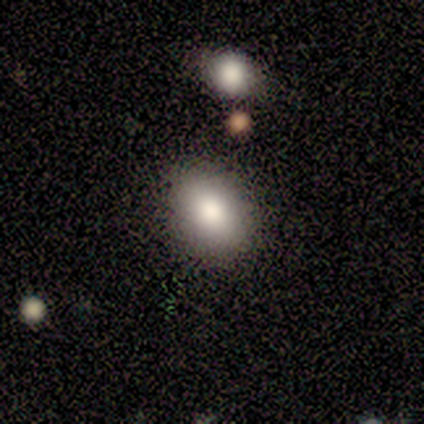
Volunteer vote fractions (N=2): smooth 50% (tied), featured or disk 50% (tied), star or artifact 0%. Down the decision tree: how rounded — round (100%); merging — none (100%).